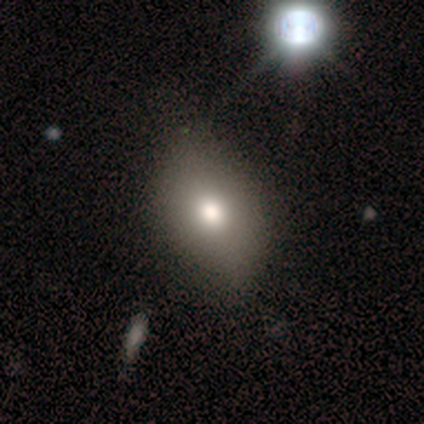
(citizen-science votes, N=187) smooth 70%, featured or disk 17%, star or artifact 13%. Down the decision tree: how rounded — in between (78%); merging — none (60%).